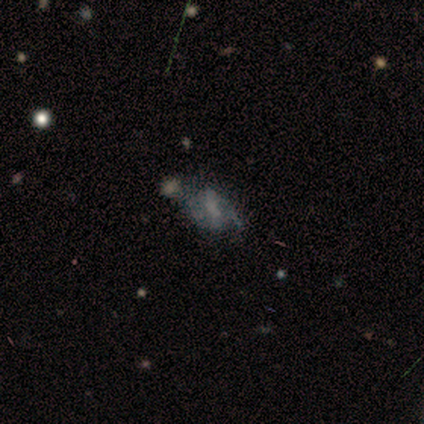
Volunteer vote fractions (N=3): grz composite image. It shows a featured or disk galaxy (100%) with a strong bar (33%, tied with weak and no), 2 (100%) medium (50%, tied with loose) spiral arms (67%) and no central bulge (67%). Merging: none (33%, tied with major disturbance and merger).